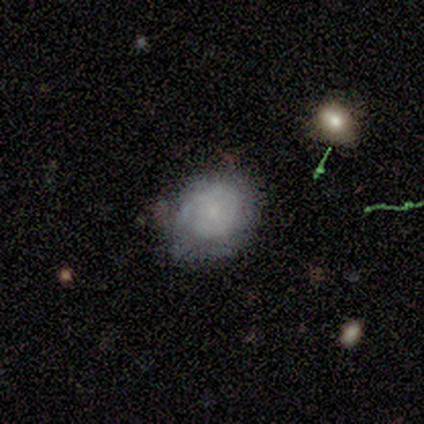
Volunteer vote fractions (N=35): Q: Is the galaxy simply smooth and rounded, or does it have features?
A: smooth — 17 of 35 (49%).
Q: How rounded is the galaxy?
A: round — 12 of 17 (71%).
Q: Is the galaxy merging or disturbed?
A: none — 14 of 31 (45%).